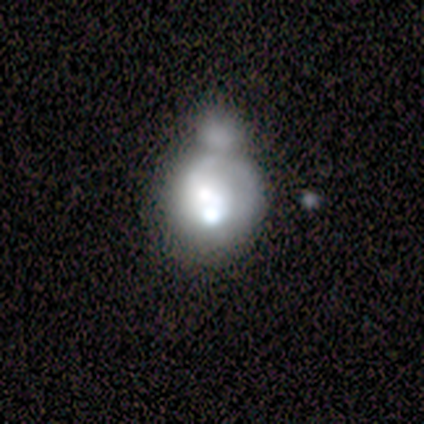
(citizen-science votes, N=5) A smooth galaxy with no disk features (40%, tied with featured or disk) that is round (50%, tied with in between).

Vote fractions:
- Smooth or featured? smooth: 40% (tied) / featured or disk: 40% (tied) / star or artifact: 20%
- How rounded? round: 50% (tied) / in between: 50% (tied) / cigar-shaped: 0%
- Merging? merger: 100% / none: 0% / minor disturbance: 0% / major disturbance: 0%